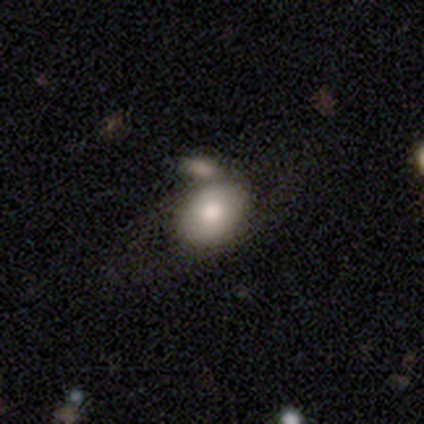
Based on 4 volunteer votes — Volunteers were most divided on "smooth or featured": smooth: 75%, featured or disk: 25%, star or artifact: 0%. More confident: how rounded — in between (100%); merging — none (100%).